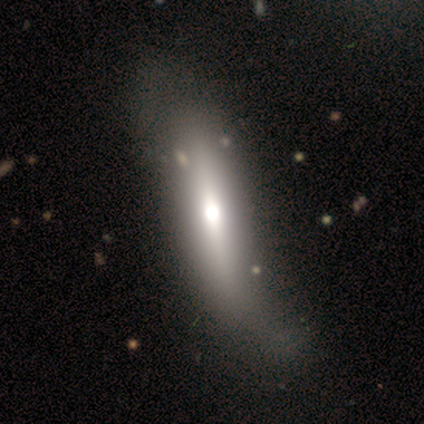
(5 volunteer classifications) A smooth galaxy with no disk features (60%) that is in between round and cigar-shaped (100%).

Vote fractions:
- Smooth or featured? smooth: 60% / featured or disk: 40% / star or artifact: 0%
- How rounded? in between: 100% / round: 0% / cigar-shaped: 0%
- Merging? major disturbance: 80% / none: 20% / minor disturbance: 0% / merger: 0%